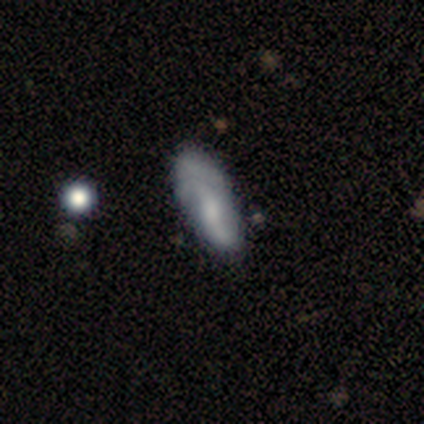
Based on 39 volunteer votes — featured or disk 62%, smooth 38%, star or artifact 0%. Down the decision tree: edge-on disk — no (96%); bar — no (48%); spiral arms — yes (91%); spiral arm count — 2 (76%); spiral winding — loose (67%); bulge size — small (30%); merging — minor disturbance (28%).